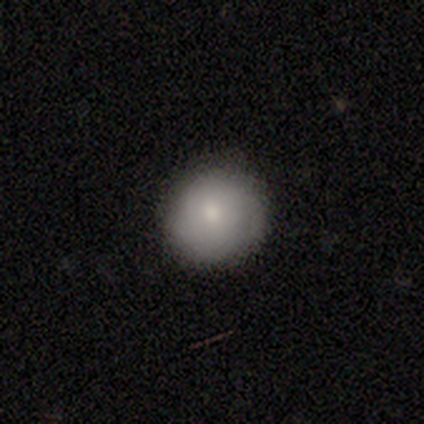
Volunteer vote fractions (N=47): A smooth galaxy with no disk features (79%) that is round (95%). Merging: none (79%).